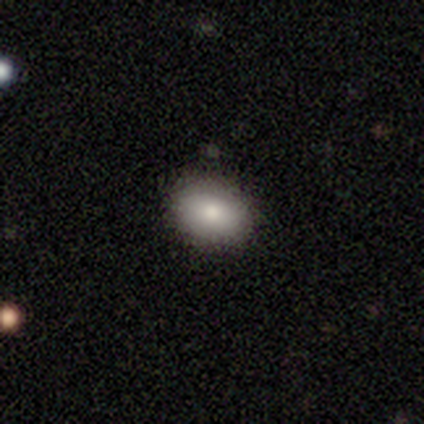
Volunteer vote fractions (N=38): Q: Smooth or featured?
A: smooth (79%); runner-up: featured or disk (11%)
Q: How rounded?
A: in between (83%); runner-up: round (17%)
Q: Merging?
A: none (91%); runner-up: minor disturbance (6%)